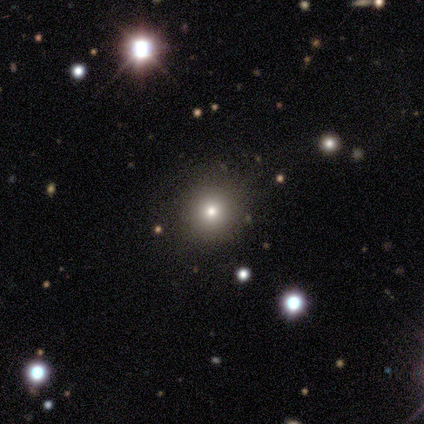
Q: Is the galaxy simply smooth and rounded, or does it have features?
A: star or artifact — 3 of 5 (60%).